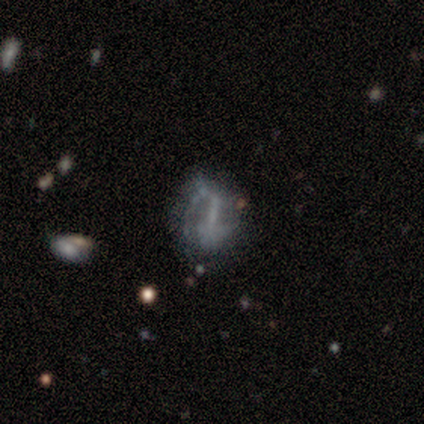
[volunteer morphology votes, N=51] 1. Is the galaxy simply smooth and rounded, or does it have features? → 67% featured or disk, 31% smooth, 2% star or artifact.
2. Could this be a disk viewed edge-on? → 97% no, 3% yes.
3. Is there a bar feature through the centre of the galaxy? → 42% strong, 33% weak, 24% no.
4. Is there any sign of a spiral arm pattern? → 58% no, 42% yes.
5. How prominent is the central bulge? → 58% none, 24% small, 18% moderate, 0% dominant, 0% large.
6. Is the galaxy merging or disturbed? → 44% none, 30% minor disturbance, 24% major disturbance, 2% merger.